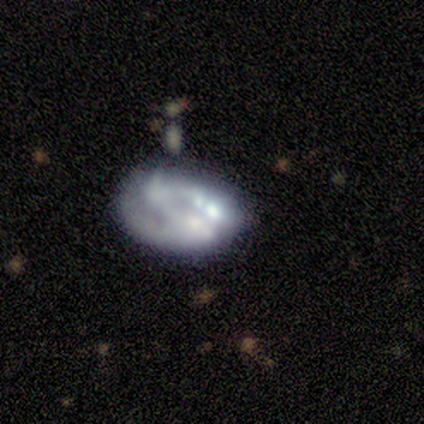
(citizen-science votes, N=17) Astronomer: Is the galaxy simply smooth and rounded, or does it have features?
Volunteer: featured or disk — 59% (runner-up: smooth, 35%).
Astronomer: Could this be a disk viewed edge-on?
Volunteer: no — 100%.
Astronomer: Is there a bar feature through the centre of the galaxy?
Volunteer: no — 80%.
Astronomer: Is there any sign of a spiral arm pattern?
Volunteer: no — 60% (runner-up: yes, 40%).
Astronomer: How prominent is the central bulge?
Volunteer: none — 70%.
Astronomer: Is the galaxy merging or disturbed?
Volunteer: none — 31% (runner-up: major disturbance, 25%).